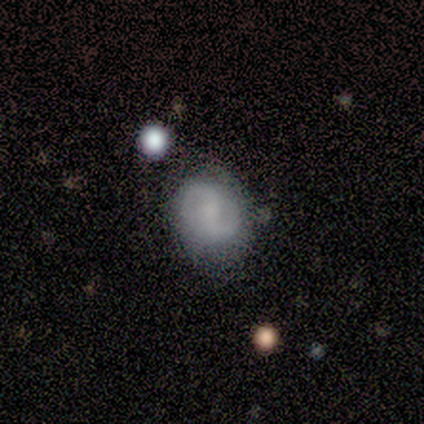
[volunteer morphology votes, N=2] smooth_or_featured: smooth (p=0.50) [tied with: featured or disk p=0.50]
how_rounded: round (p=1.00)
merging: none (p=0.50) [tied with: major disturbance p=0.50]